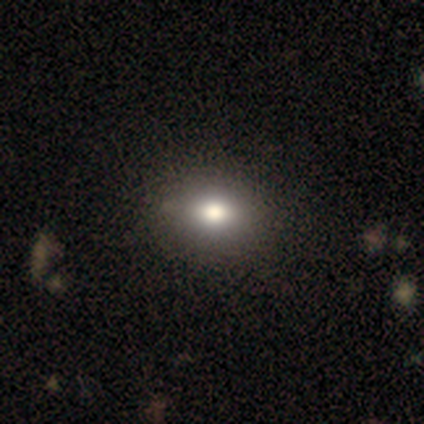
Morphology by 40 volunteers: This appears to be a smooth galaxy with no disk features (78%) that is in between round and cigar-shaped (68%). Merging: none (67%).